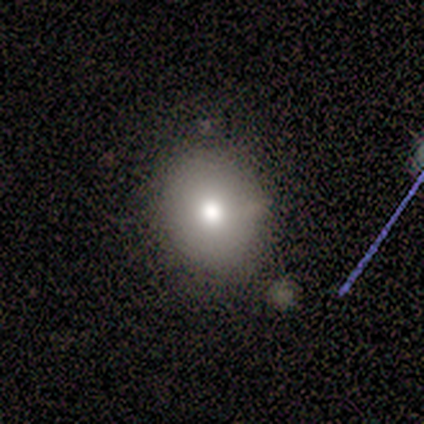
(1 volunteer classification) Overall: featured or disk (100%). Edge-on disk: no (100%). Bar: no (100%). Spiral arms: no (100%). Bulge size: dominant (100%). Merging: none (100%).